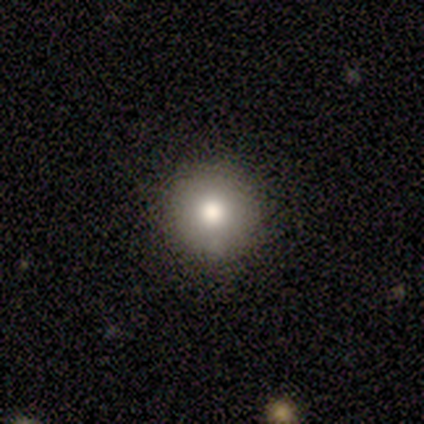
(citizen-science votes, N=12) smooth-or-featured: smooth: 67% | star or artifact: 33% | featured or disk: 0%
  how-rounded: round: 100% | in between: 0% | cigar-shaped: 0%
  merging: none: 100% | minor disturbance: 0% | major disturbance: 0% | merger: 0%